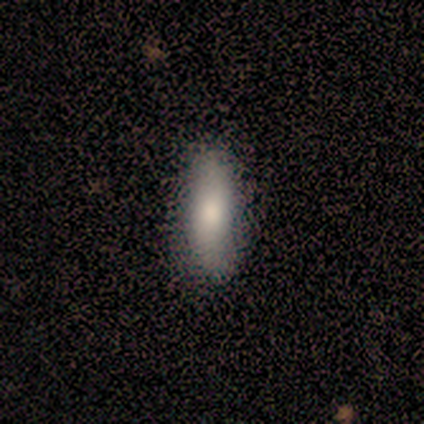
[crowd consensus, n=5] smooth_or_featured: smooth (p=0.80) [alt: featured or disk p=0.20]
how_rounded: in between (p=0.75) [alt: cigar-shaped p=0.25]
merging: none (p=0.80) [alt: minor disturbance p=0.20]